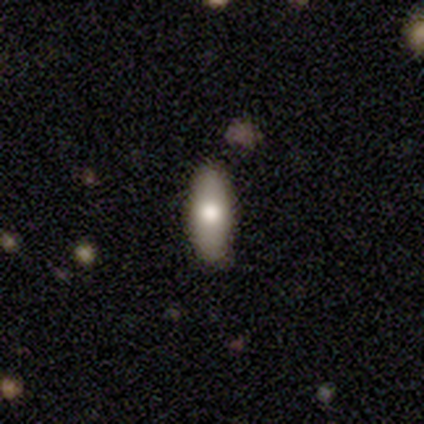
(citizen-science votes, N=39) This appears to be a smooth galaxy with no disk features (64%) that is in between round and cigar-shaped (84%). Merging: none (78%).